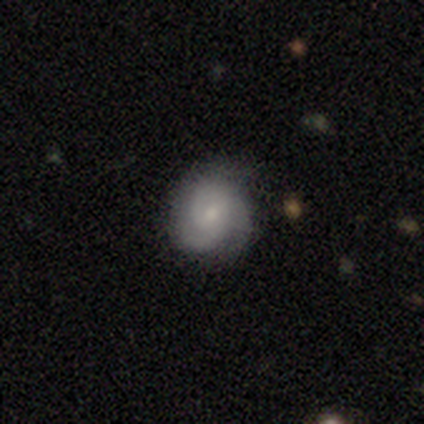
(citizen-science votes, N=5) smooth-or-featured: smooth: 40% (tied) | featured or disk: 40% (tied) | star or artifact: 20%
  how-rounded: round: 100% | in between: 0% | cigar-shaped: 0%
  merging: none: 75% | minor disturbance: 25% | major disturbance: 0% | merger: 0%